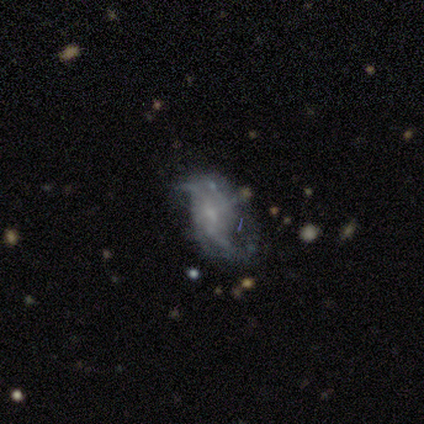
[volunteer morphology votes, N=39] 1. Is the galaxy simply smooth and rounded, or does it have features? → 82% featured or disk, 10% star or artifact, 8% smooth.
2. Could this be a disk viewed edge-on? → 97% no, 3% yes.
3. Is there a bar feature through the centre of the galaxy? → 65% no, 32% weak, 3% strong.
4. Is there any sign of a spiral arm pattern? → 81% yes, 19% no.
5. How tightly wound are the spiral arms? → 64% loose, 24% tight, 12% medium.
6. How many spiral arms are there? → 64% 2, 32% can't tell, 4% 3, 0% 1, 0% 4, 0% more than 4.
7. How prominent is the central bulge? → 48% small, 32% none, 13% moderate, 3% dominant, 3% large.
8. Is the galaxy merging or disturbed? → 40% none, 34% major disturbance, 20% minor disturbance, 6% merger.